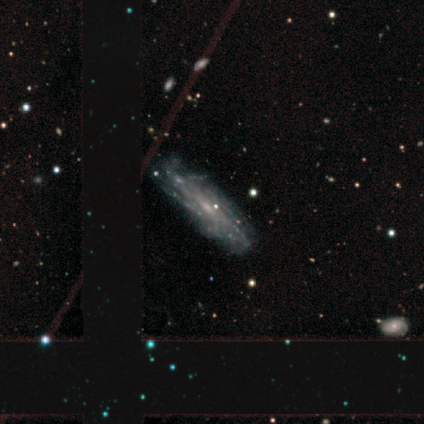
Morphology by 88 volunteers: Smooth or featured: featured or disk — 90% (smooth — 9%)
Edge-on disk: no — 81% (yes — 19%)
Bar: no — 62% (weak — 34%)
Spiral arms: yes — 95% (no — 5%)
Spiral winding: tight — 59% (medium — 36%)
Spiral arm count: can't tell — 57% (more than 4 — 30%)
Bulge size: small — 73% (moderate — 17%)
Merging: none — 75% (minor disturbance — 16%)